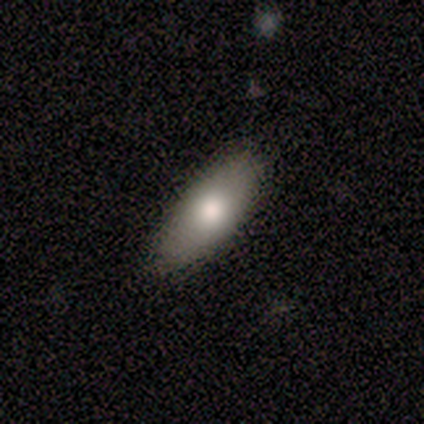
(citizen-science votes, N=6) Smooth or featured?
  - smooth: 67% *
  - featured or disk: 17%
  - star or artifact: 17%
How rounded?
  - in between: 75% *
  - cigar-shaped: 25%
  - round: 0%
Merging?
  - none: 100% *
  - minor disturbance: 0%
  - major disturbance: 0%
  - merger: 0%